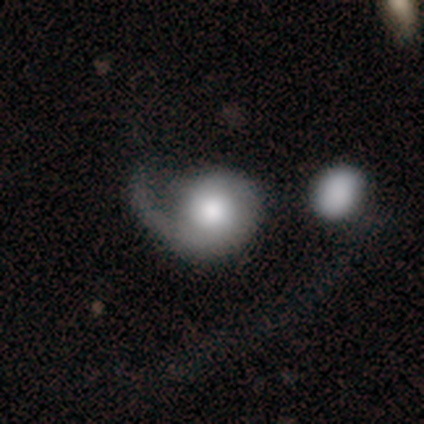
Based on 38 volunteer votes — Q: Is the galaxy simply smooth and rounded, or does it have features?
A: featured or disk — 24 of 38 (63%).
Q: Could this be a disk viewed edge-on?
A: no — 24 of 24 (100%).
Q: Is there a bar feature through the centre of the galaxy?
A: no — 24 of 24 (100%).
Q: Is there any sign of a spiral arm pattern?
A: yes — 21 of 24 (88%).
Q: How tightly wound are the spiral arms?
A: loose — 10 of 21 (48%).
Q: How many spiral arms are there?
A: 1 — 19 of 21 (90%).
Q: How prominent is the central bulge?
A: moderate — 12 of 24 (50%).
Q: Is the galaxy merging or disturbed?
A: major disturbance — 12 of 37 (32%).